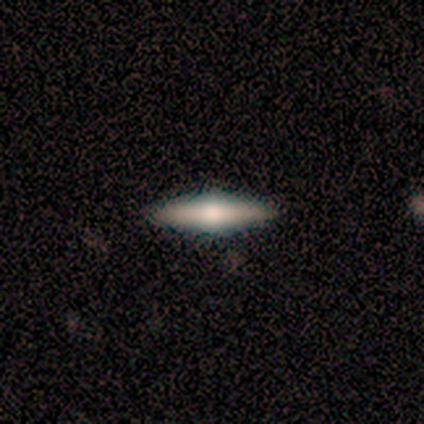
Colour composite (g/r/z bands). It shows a featured or disk galaxy (60%) viewed edge-on (100%) with a rounded central bulge (67%). Merging: none (100%).